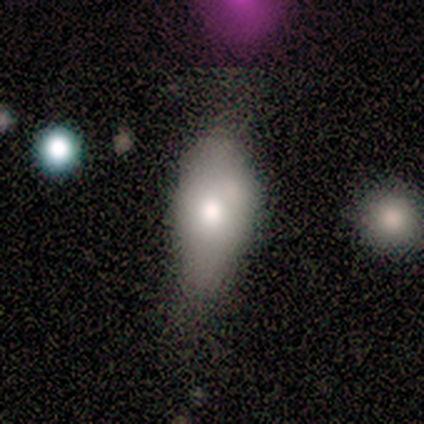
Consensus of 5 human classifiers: A smooth galaxy with no disk features (80%) that is in between round and cigar-shaped (75%). Merging: none (50%).